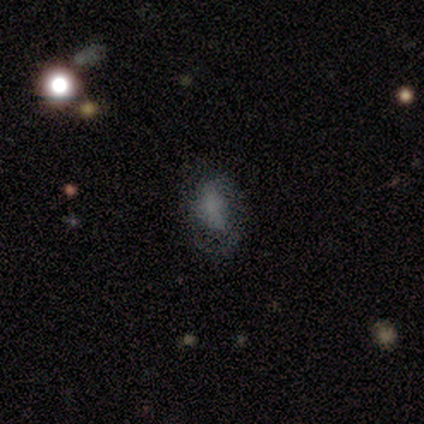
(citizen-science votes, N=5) Smooth or featured?
  - smooth: 80% *
  - star or artifact: 20%
  - featured or disk: 0%
How rounded?
  - in between: 75% *
  - round: 25%
  - cigar-shaped: 0%
Merging?
  - none: 100% *
  - minor disturbance: 0%
  - major disturbance: 0%
  - merger: 0%